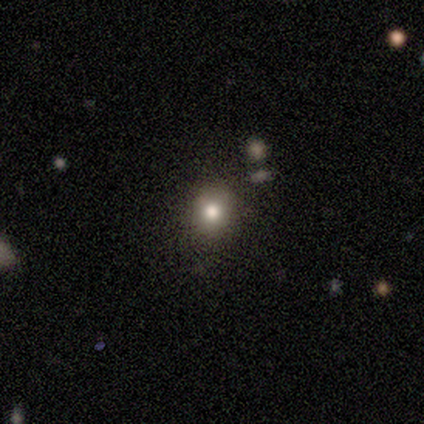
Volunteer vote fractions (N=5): Smooth or featured? smooth (80%)
How rounded? round (100%)
Merging? none (50%)